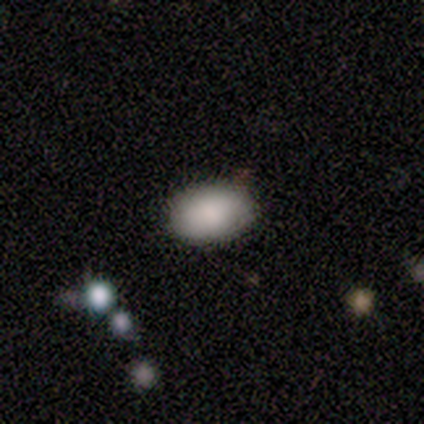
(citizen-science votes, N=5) smooth 80%, featured or disk 20%, star or artifact 0%. Down the decision tree: how rounded — in between (100%); merging — none (80%).